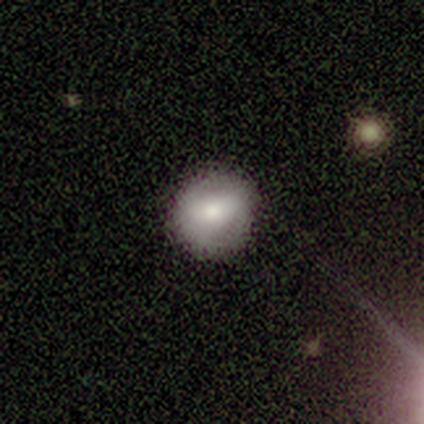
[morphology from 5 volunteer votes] This is clearly a smooth galaxy (80%). How rounded: clearly round (100%). Merging: clearly none (80%).